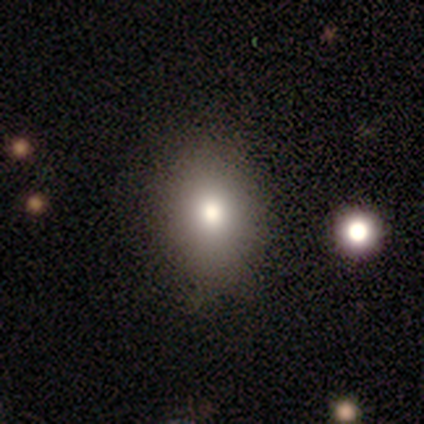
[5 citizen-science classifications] Smooth or featured: smooth — 100%
How rounded: in between — 80% (round — 20%)
Merging: none — 100%